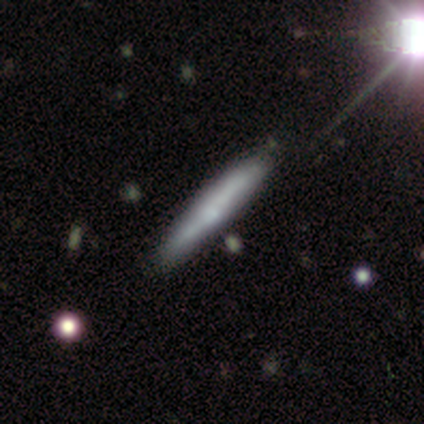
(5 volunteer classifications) Volunteers were most divided on "smooth or featured": featured or disk: 60%, smooth: 40%, star or artifact: 0%. More confident: edge-on bulge — none (100%); merging — none (80%); edge-on disk — yes (67%).